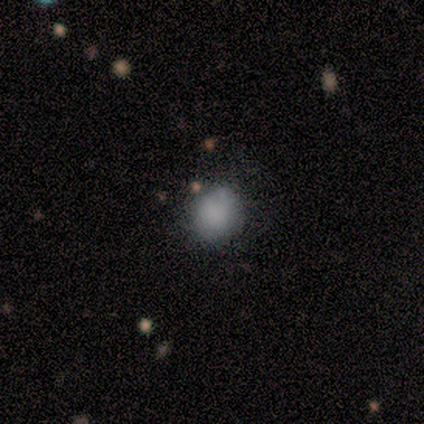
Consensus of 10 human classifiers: Smooth or featured: smooth — 90% (featured or disk — 10%)
How rounded: round — 78% (in between — 22%)
Merging: none — 50% (minor disturbance — 40%)